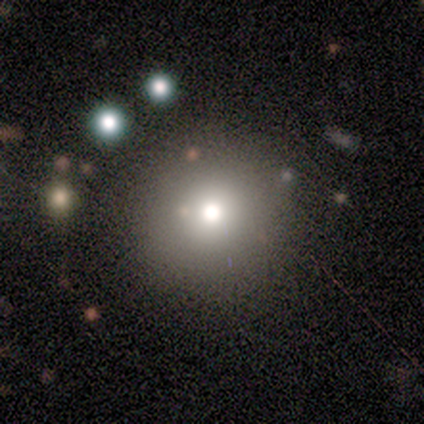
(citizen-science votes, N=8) smooth 38% (tied), star or artifact 38% (tied), featured or disk 25%. Down the decision tree: how rounded — round (67%); merging — none (80%).